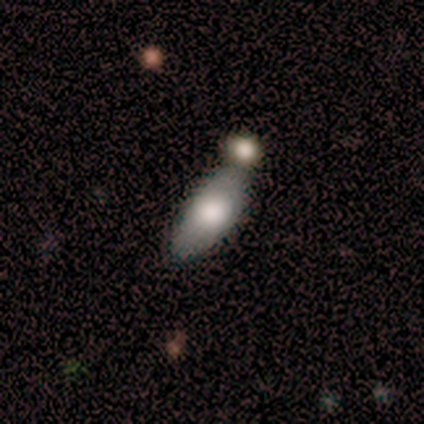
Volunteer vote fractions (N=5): Morphology: type=smooth (80%); roundness=in between (100%); merging=minor disturbance (40%).